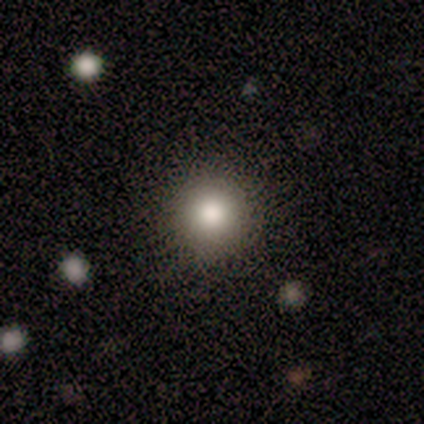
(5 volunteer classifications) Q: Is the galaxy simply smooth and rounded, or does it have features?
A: smooth — 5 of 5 (100%).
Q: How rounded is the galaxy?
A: round — 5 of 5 (100%).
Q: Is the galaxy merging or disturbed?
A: none — 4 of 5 (80%).